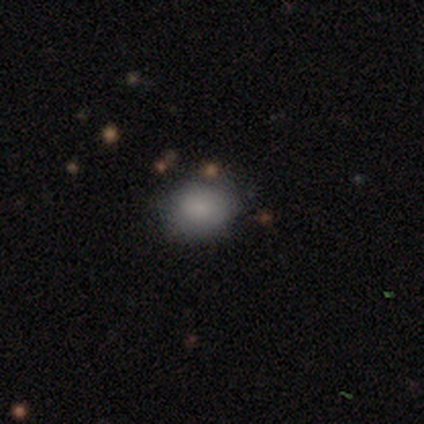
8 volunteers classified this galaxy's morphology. Smooth or featured?
  - smooth: 50% *
  - star or artifact: 38%
  - featured or disk: 12%
How rounded?
  - in between: 75% *
  - round: 25%
  - cigar-shaped: 0%
Merging?
  - none: 40% * (tied)
  - minor disturbance: 40% * (tied)
  - major disturbance: 20%
  - merger: 0%